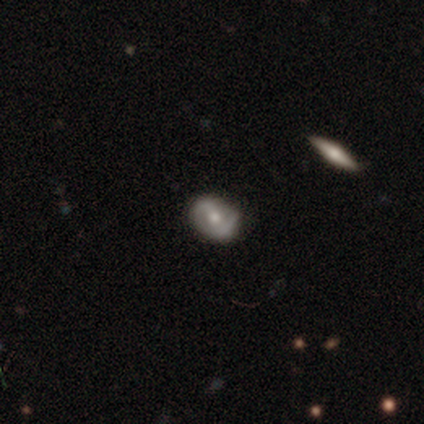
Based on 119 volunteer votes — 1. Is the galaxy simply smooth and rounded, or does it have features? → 74% featured or disk, 20% smooth, 6% star or artifact.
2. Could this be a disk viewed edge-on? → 97% no, 3% yes.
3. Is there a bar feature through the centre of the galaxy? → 36% weak (tied), 36% no (tied), 27% strong.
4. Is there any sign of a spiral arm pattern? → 71% yes, 29% no.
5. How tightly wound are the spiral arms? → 47% tight, 40% medium, 13% loose.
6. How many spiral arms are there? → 73% 2, 13% 1, 13% can't tell, 0% 3, 0% 4, 0% more than 4.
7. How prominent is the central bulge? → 71% moderate, 14% small, 12% large, 2% none, 1% dominant.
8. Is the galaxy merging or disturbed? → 80% none, 16% minor disturbance, 4% major disturbance, 0% merger.